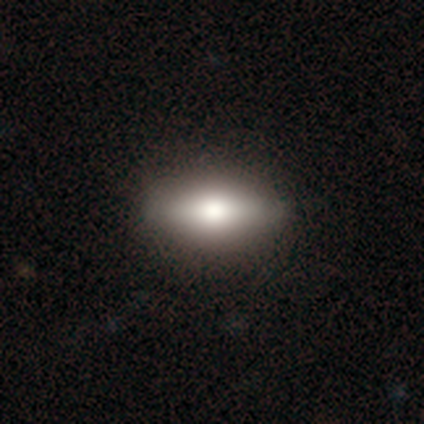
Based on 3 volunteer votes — A smooth galaxy with no disk features (100%) that is in between round and cigar-shaped (100%).

Vote fractions:
- Smooth or featured? smooth: 100% / featured or disk: 0% / star or artifact: 0%
- How rounded? in between: 100% / round: 0% / cigar-shaped: 0%
- Merging? none: 67% / minor disturbance: 33% / major disturbance: 0% / merger: 0%